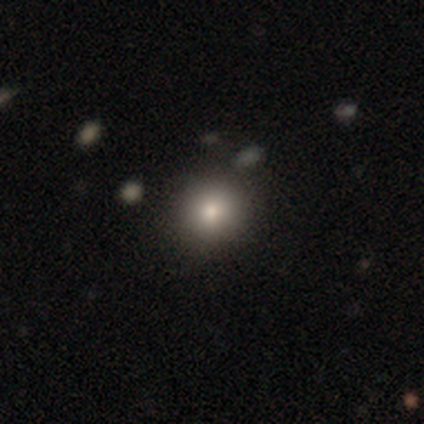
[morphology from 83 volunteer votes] smooth 71%, featured or disk 14%, star or artifact 14%. Down the decision tree: how rounded — round (80%); merging — none (82%).